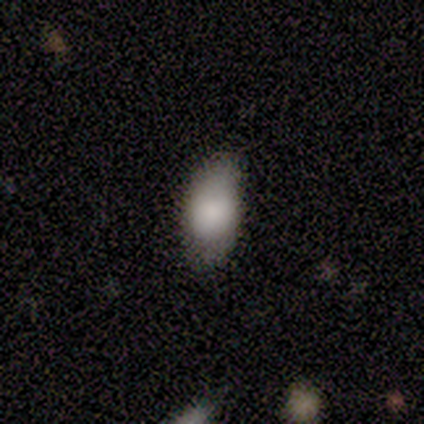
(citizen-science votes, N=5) This appears to be a smooth galaxy with no disk features (40%, tied with star or artifact) that is in between round and cigar-shaped (100%). Merging: none (100%).